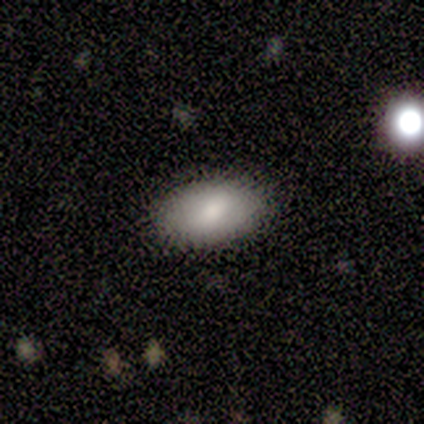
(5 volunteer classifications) Smooth or featured? smooth (100%)
How rounded? in between (100%)
Merging? none (100%)